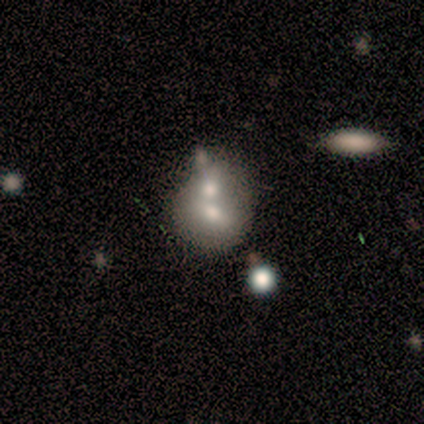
This is clearly a smooth galaxy (80%). How rounded: possibly round (50%, tied with in between). Merging: clearly merger (80%).